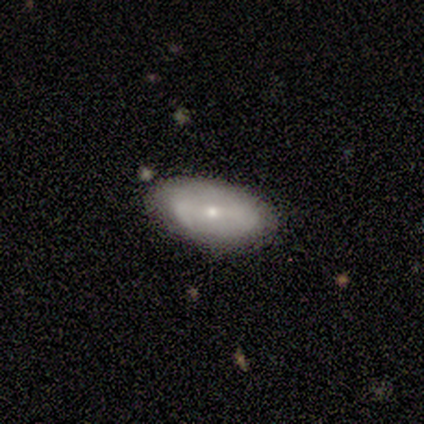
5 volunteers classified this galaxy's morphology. This is likely a featured or disk galaxy (60%). It is clearly not viewed edge-on (100%). Bar: likely weak (67%). Spiral arm pattern: likely no (67%). Central bulge: likely moderate (67%). Merging: likely minor disturbance (60%).